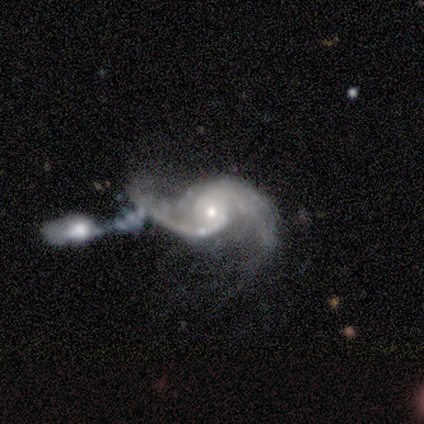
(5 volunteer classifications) This appears to be a featured or disk galaxy (100%) with no bar (100%), 2 (100%) loose (50%) spiral arms (100%) and a moderate central bulge (50%, tied with small). Merging: major disturbance (40%, tied with merger).